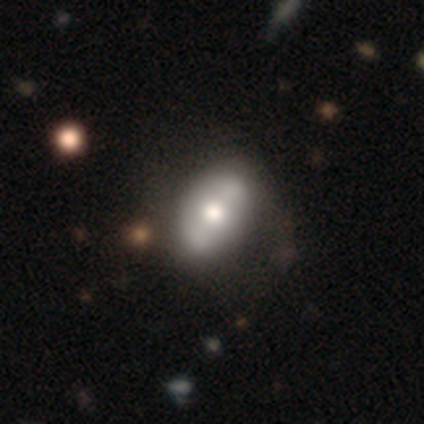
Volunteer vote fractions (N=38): Smooth or featured? 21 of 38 (55%) said featured or disk. Edge-on disk? 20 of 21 (95%) said no. Bar? 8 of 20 (40%) said no. Spiral arms? 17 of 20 (85%) said no. Bulge size? 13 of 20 (65%) said moderate. Merging? 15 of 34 (44%) said none.